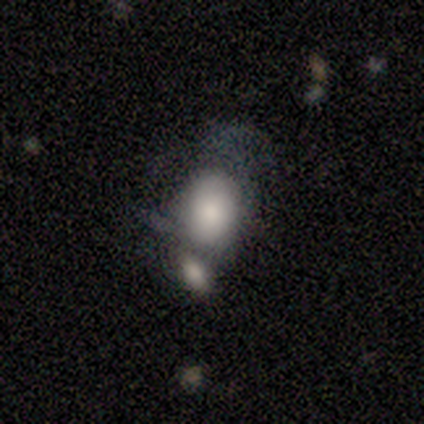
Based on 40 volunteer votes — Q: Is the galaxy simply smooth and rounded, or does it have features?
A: smooth — 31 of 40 (78%).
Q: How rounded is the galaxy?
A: in between — 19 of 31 (61%).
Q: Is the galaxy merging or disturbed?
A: merger — 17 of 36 (47%).